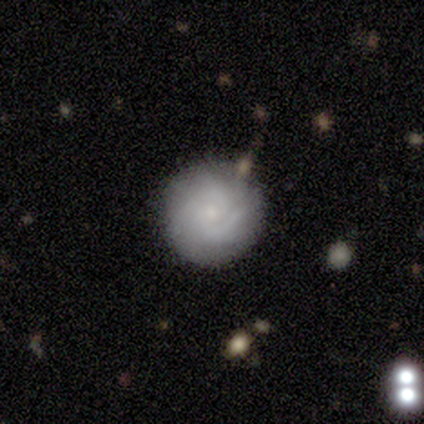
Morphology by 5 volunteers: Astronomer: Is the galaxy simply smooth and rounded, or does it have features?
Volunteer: smooth — 40%, tied with featured or disk at 40%.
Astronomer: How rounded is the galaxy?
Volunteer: round — 100%.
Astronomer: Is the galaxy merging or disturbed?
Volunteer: none — 75%.